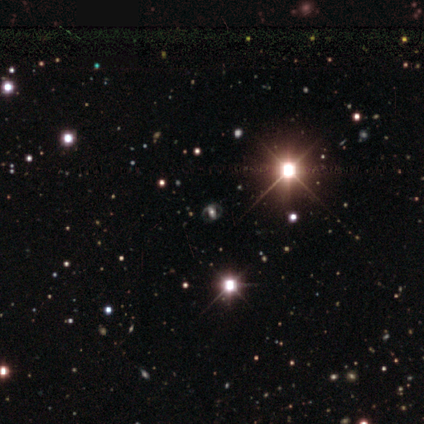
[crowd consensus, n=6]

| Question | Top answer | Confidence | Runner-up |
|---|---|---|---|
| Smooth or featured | featured or disk | 100% | — |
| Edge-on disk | no | 100% | — |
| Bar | no | 50% | weak (33%) |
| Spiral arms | no | 67% | yes (33%) |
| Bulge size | small | 50% | large (33%) |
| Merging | none | 100% | — |